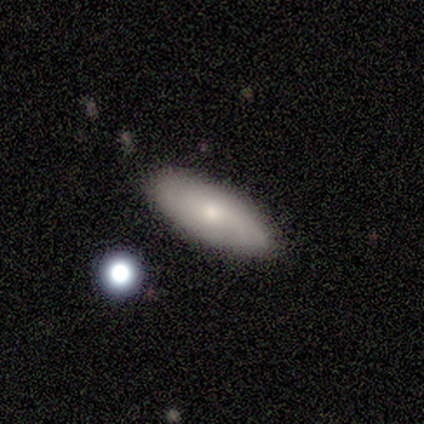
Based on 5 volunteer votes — A featured or disk galaxy (60%) with no bar (100%), no spiral arms (67%) and a small central bulge (67%). Merging: none (60%).